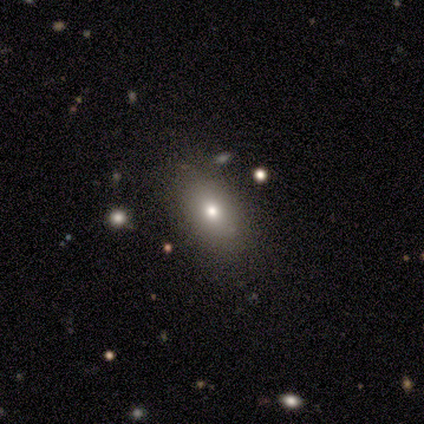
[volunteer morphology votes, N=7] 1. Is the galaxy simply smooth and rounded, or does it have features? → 43% smooth (tied), 43% featured or disk (tied), 14% star or artifact.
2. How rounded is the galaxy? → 67% in between, 33% round, 0% cigar-shaped.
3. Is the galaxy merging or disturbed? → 83% none, 17% minor disturbance, 0% major disturbance, 0% merger.